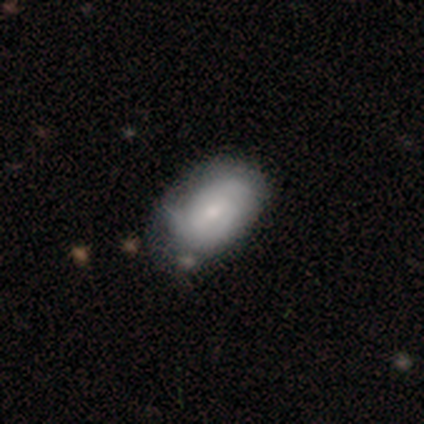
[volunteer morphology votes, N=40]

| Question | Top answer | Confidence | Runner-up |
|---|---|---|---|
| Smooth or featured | smooth | 50% | featured or disk (45%) |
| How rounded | in between | 90% | round (10%) |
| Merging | none | 58% | minor disturbance (34%) |